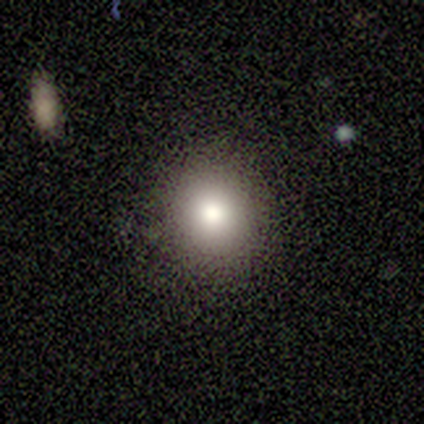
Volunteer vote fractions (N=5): Smooth or featured? 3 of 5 (60%) said smooth. How rounded? 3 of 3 (100%) said round. Merging? 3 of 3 (100%) said none.